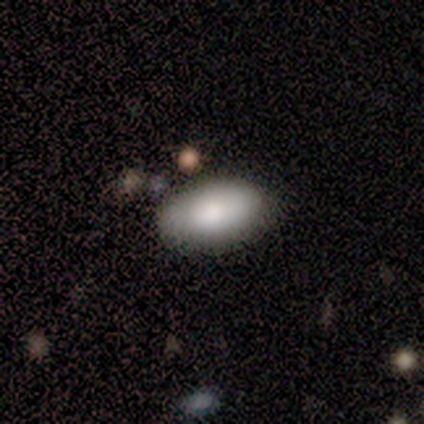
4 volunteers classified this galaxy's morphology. A smooth galaxy with no disk features (75%) that is in between round and cigar-shaped (100%).

Vote fractions:
- Smooth or featured? smooth: 75% / featured or disk: 25% / star or artifact: 0%
- How rounded? in between: 100% / round: 0% / cigar-shaped: 0%
- Merging? none: 50% / minor disturbance: 25% / major disturbance: 25% / merger: 0%